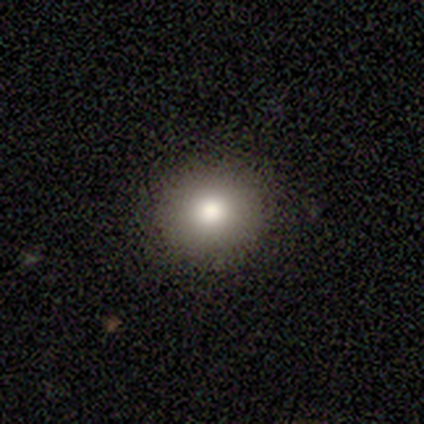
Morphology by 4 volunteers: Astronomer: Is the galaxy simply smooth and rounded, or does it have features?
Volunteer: smooth — 75%.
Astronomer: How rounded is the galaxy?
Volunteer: round — 100%.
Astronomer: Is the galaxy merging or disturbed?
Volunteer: none — 100%.